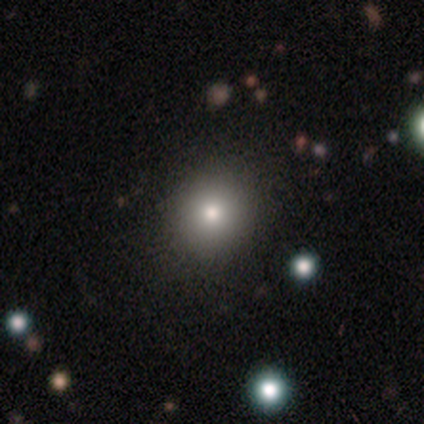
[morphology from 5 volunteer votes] Smooth or featured? 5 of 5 (100%) said smooth. How rounded? 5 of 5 (100%) said round. Merging? 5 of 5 (100%) said none.